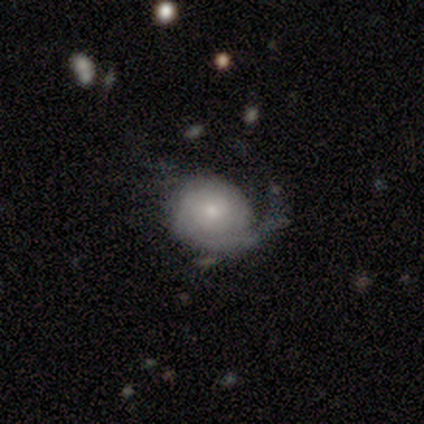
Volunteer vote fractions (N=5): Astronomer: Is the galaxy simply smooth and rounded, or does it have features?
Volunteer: smooth — 60% (runner-up: featured or disk, 40%).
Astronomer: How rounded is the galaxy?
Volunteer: in between — 67%.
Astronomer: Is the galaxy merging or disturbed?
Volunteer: major disturbance — 60% (runner-up: minor disturbance, 40%).